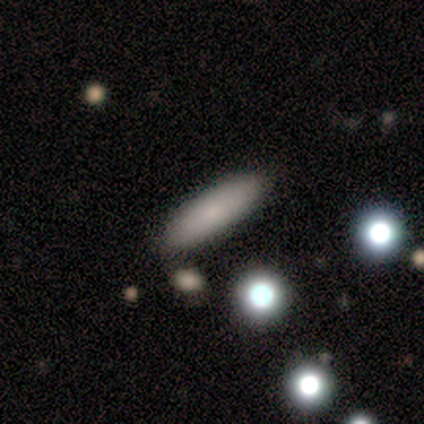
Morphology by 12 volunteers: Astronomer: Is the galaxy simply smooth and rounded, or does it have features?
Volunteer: smooth — 83%.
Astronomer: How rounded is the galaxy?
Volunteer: cigar-shaped — 60% (runner-up: in between, 40%).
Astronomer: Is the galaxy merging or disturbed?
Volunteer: none — 100%.